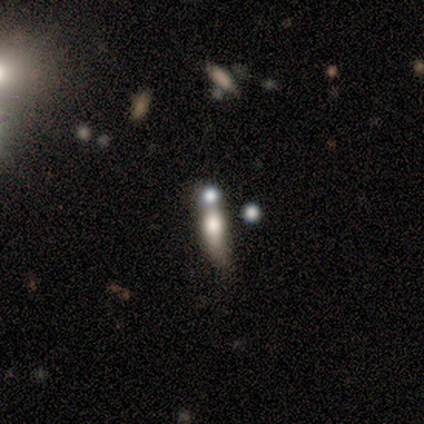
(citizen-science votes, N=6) A featured or disk galaxy (50%) with no bar (100%), no spiral arms (100%) and a large central bulge (50%, tied with moderate). Merging: merger (60%).